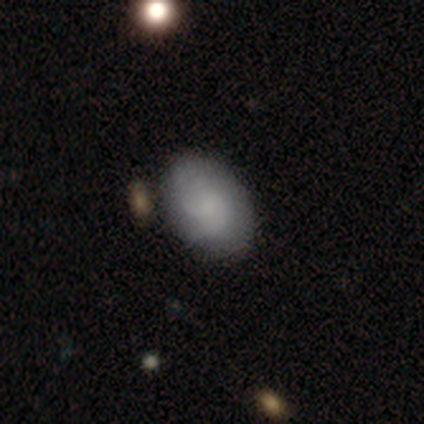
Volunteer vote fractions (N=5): smooth_or_featured: smooth (p=0.80) [alt: featured or disk p=0.20]
how_rounded: in between (p=1.00)
merging: none (p=0.80) [alt: minor disturbance p=0.20]